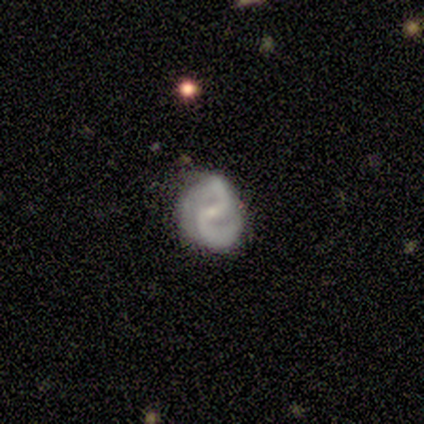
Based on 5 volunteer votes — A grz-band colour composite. It shows a featured or disk galaxy (100%) with a weak bar (80%), 2 (100%) medium (60%) spiral arms (100%) and a small central bulge (100%). Merging: none (60%).